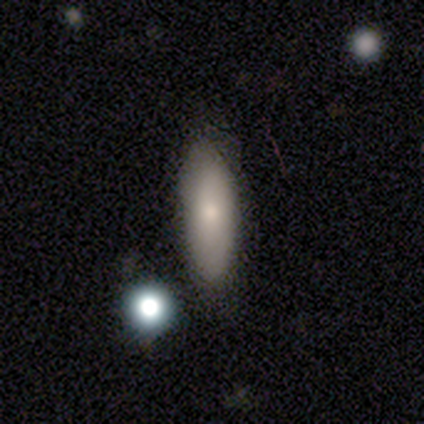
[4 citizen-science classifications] Q: Smooth or featured?
A: smooth (75%); runner-up: featured or disk (25%)
Q: How rounded?
A: in between (67%); runner-up: cigar-shaped (33%)
Q: Merging?
A: none (75%); runner-up: minor disturbance (25%)